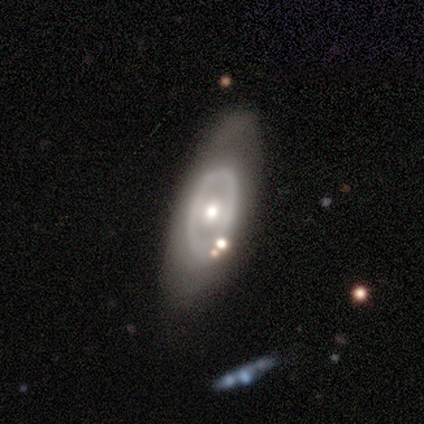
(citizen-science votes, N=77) This is likely a featured or disk galaxy (66%). It is clearly not viewed edge-on (94%). Bar: clearly no (92%). Spiral arm pattern: clearly no (96%). Central bulge: likely moderate (71%). Merging: marginally none (44%).